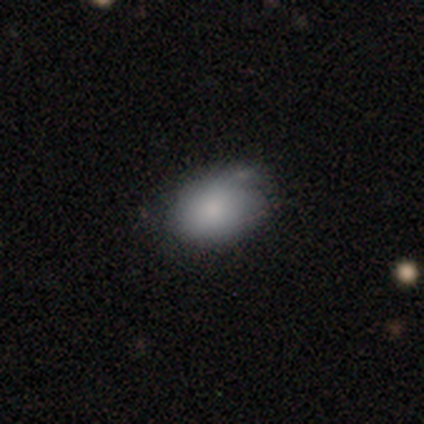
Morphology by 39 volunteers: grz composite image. It shows a smooth galaxy with no disk features (79%) that is in between round and cigar-shaped (81%). Merging: none (54%).